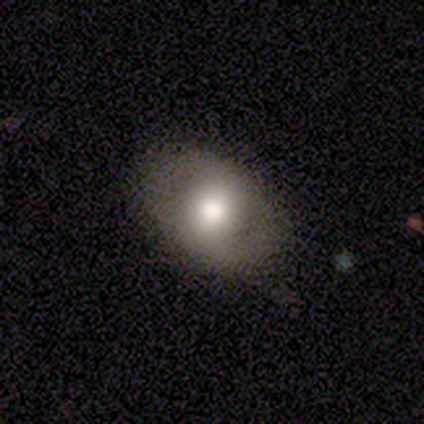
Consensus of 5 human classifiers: Q: Smooth or featured?
A: smooth (80%); runner-up: featured or disk (20%)
Q: How rounded?
A: in between (75%); runner-up: round (25%)
Q: Merging?
A: none (80%); runner-up: minor disturbance (20%)